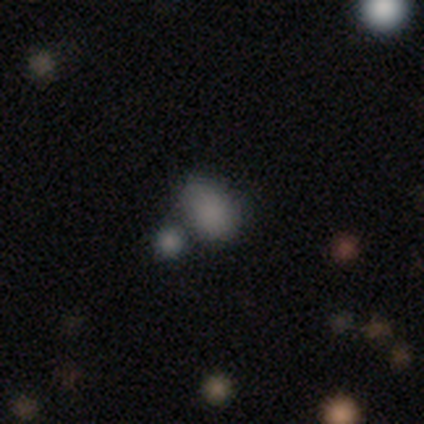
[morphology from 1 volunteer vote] Smooth or featured: star or artifact — 100%